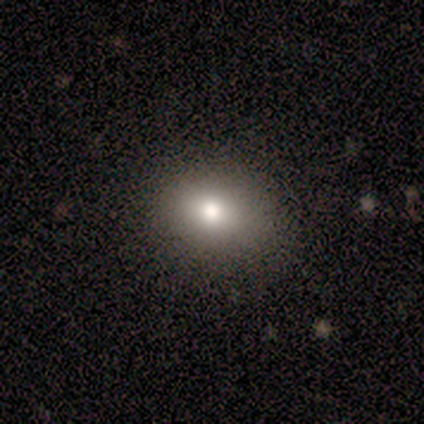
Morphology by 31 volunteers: Smooth or featured? smooth (81%)
How rounded? in between (52%)
Merging? none (100%)